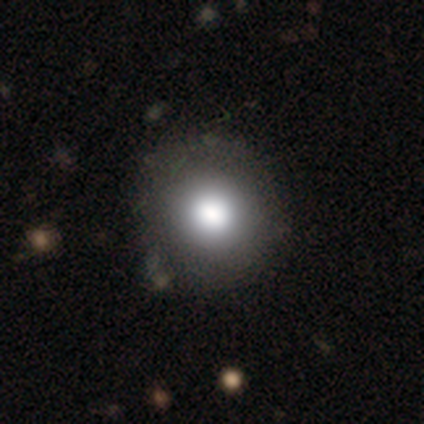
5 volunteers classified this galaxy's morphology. Q: Smooth or featured?
A: smooth (60%); runner-up: star or artifact (40%)
Q: How rounded?
A: round (100%)
Q: Merging?
A: none (100%)